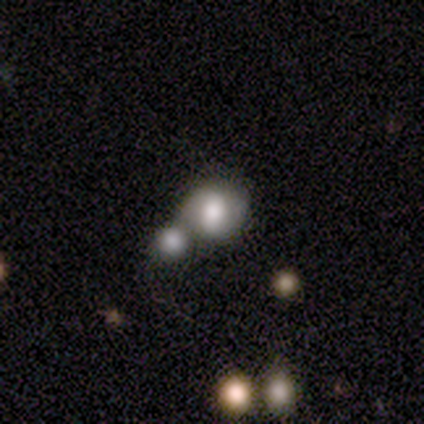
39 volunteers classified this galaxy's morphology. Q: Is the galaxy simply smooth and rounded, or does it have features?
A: smooth — 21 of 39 (54%).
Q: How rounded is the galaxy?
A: round — 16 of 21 (76%).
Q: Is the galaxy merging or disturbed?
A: merger — 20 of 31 (65%).